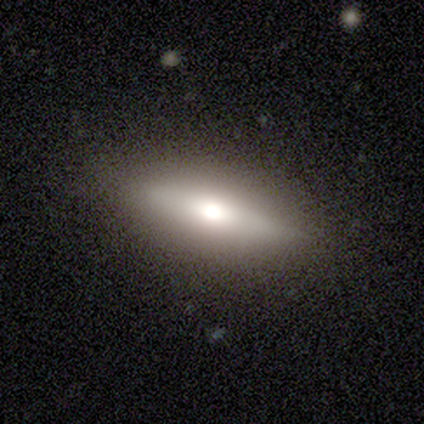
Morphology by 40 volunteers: Smooth or featured? smooth (70%)
How rounded? cigar-shaped (71%)
Merging? none (90%)